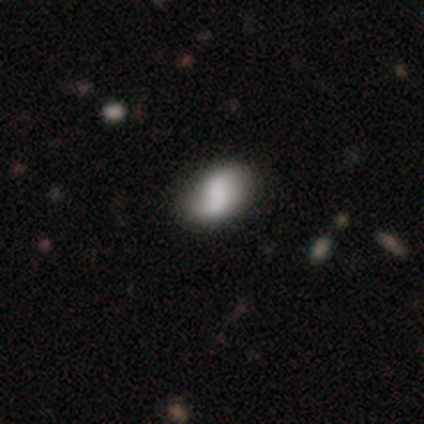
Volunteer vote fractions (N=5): smooth-or-featured: featured or disk: 60% | smooth: 20% | star or artifact: 20%
  disk-edge-on: no: 100% | yes: 0%
    bar: weak: 67% | strong: 33% | no: 0%
    has-spiral-arms: yes: 100% | no: 0%
      spiral-winding: loose: 67% | tight: 33% | medium: 0%
      spiral-arm-count: 2: 100% | 1: 0% | 3: 0% | 4: 0% | more than 4: 0% | can't tell: 0%
    bulge-size: large: 33% (tied) | moderate: 33% (tied) | none: 33% (tied) | dominant: 0% | small: 0%
  merging: none: 50% (tied) | minor disturbance: 50% (tied) | major disturbance: 0% | merger: 0%